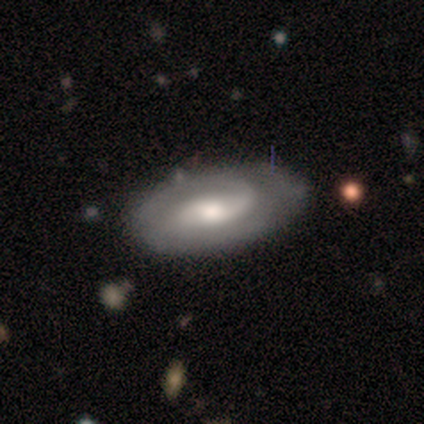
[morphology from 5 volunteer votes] This is clearly a featured or disk galaxy (100%). It is clearly not viewed edge-on (100%). Bar: likely no (60%). Spiral arm pattern: likely yes (60%). Spiral arm count: clearly 2 (100%). Spiral winding: likely tight (67%). Central bulge: marginally moderate (40%, tied with small). Merging: clearly none (80%).